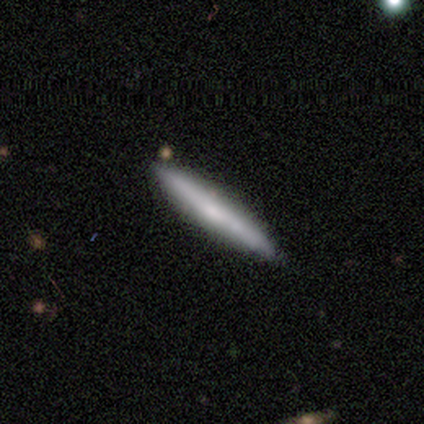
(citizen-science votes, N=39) Smooth or featured? smooth (59%)
How rounded? cigar-shaped (96%)
Merging? none (89%)